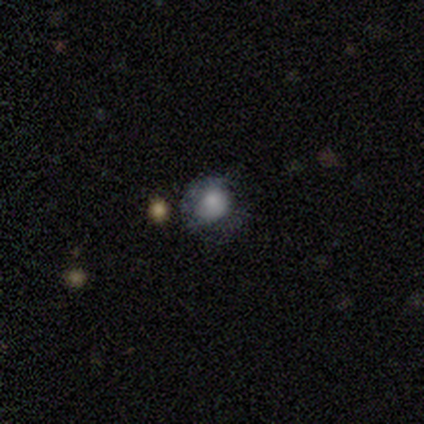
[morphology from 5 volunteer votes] Smooth or featured: smooth — 100%
How rounded: round — 80% (in between — 20%)
Merging: none — 80% (minor disturbance — 20%)